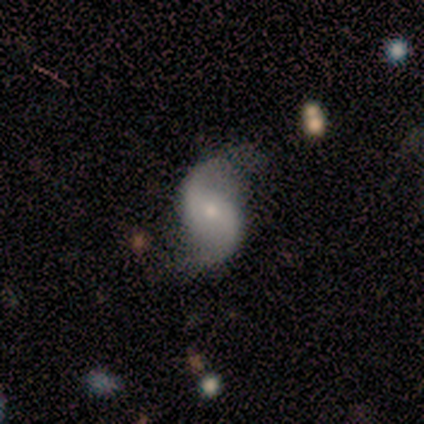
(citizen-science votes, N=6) This is clearly a featured or disk galaxy (83%). It is clearly not viewed edge-on (80%). Bar: possibly strong (50%, tied with weak). Spiral arm pattern: clearly yes (100%). Spiral arm count: clearly 2 (100%). Spiral winding: clearly loose (100%). Central bulge: possibly moderate (50%, tied with small). Merging: possibly none (50%).